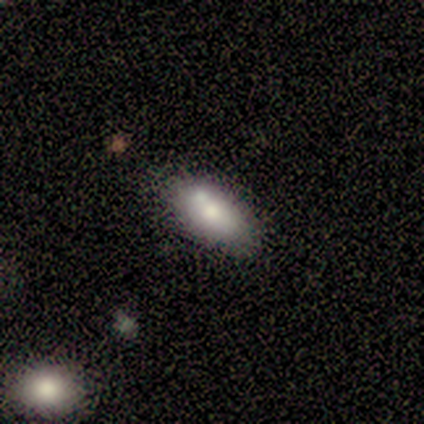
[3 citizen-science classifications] Smooth or featured?
  - smooth: 67% *
  - featured or disk: 33%
  - star or artifact: 0%
How rounded?
  - in between: 100% *
  - round: 0%
  - cigar-shaped: 0%
Merging?
  - none: 67% *
  - minor disturbance: 33%
  - major disturbance: 0%
  - merger: 0%